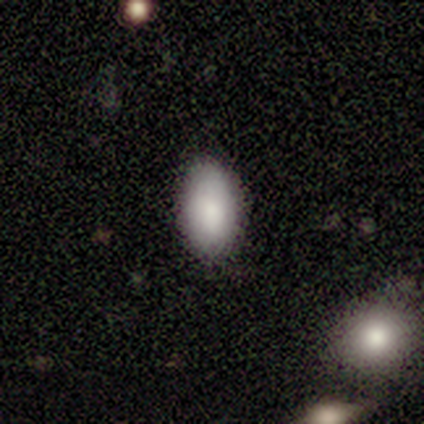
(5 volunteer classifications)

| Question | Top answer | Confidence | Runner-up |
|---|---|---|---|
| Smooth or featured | smooth | 80% | featured or disk (20%) |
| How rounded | in between | 100% | — |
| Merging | none | 80% | merger (20%) |